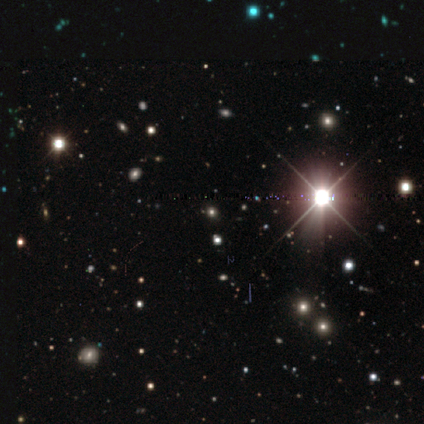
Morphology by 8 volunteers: This is likely a star or artifact rather than a galaxy (75%).